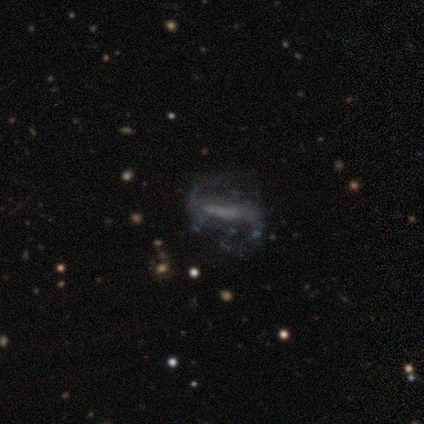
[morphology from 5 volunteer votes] Smooth or featured? 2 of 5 (40%, tied with star or artifact) said featured or disk. Edge-on disk? 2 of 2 (100%) said no. Bar? 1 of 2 (50%, tied with no) said strong. Spiral arms? 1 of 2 (50%, tied with no) said yes. Spiral winding? 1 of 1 (100%) said loose. Spiral arm count? 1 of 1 (100%) said 2. Bulge size? 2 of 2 (100%) said none. Merging? 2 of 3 (67%) said none.